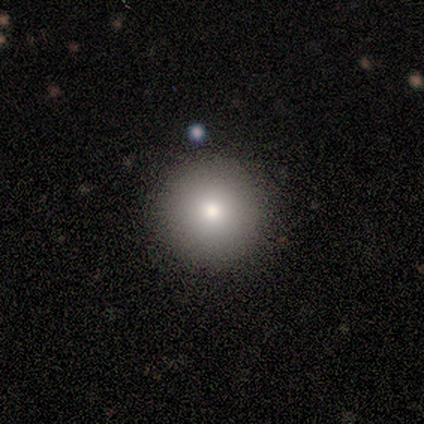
smooth 60%, featured or disk 20%, star or artifact 20%. Down the decision tree: how rounded — round (100%); merging — none (100%).